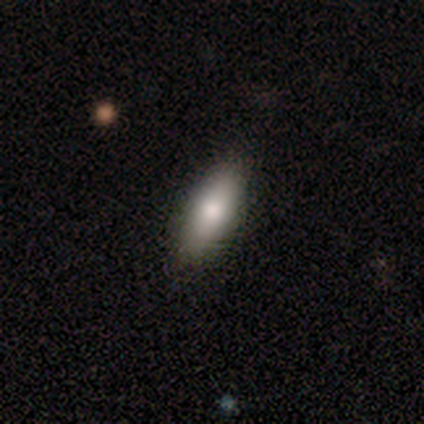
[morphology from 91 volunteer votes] smooth-or-featured: smooth: 84% | featured or disk: 13% | star or artifact: 3%
  how-rounded: in between: 75% | cigar-shaped: 25% | round: 0%
  merging: none: 89% | minor disturbance: 7% | major disturbance: 3% | merger: 1%